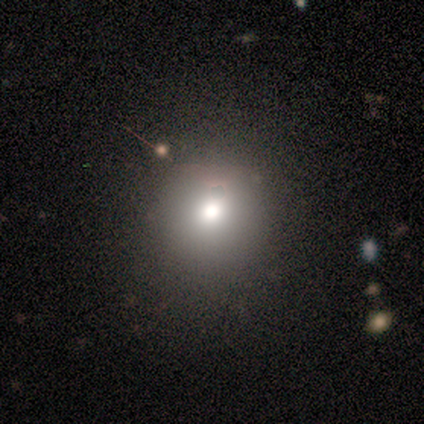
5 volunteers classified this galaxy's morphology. smooth-or-featured: smooth: 60% | star or artifact: 40% | featured or disk: 0%
  how-rounded: round: 67% | in between: 33% | cigar-shaped: 0%
  merging: none: 67% | major disturbance: 33% | minor disturbance: 0% | merger: 0%